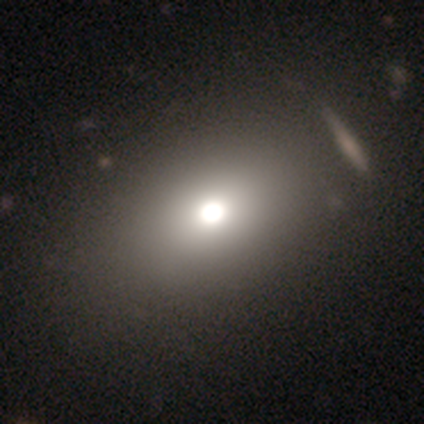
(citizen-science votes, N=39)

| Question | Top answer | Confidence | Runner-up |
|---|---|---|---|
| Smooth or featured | smooth | 79% | star or artifact (15%) |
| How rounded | in between | 52% | round (45%) |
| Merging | none | 61% | minor disturbance (3%) |